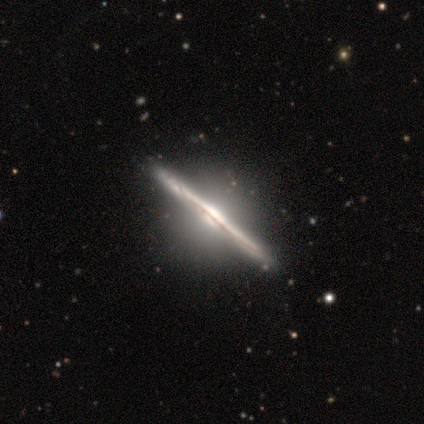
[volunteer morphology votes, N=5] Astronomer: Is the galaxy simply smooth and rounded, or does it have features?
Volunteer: featured or disk — 100%.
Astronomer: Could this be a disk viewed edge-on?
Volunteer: yes — 100%.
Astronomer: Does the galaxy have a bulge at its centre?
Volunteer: boxy — 60%.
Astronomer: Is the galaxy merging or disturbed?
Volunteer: none — 100%.